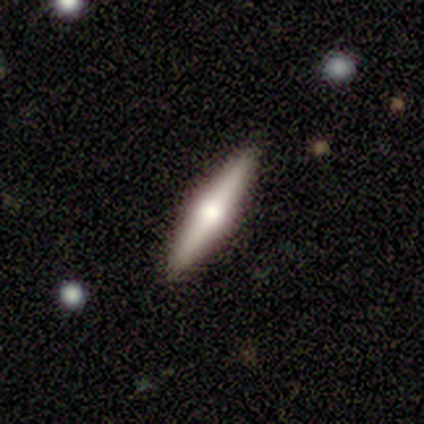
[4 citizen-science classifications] A featured or disk galaxy (75%) viewed edge-on (100%) with a rounded central bulge (100%). Merging: none (100%).